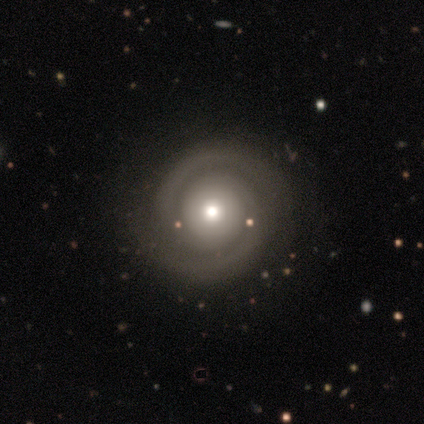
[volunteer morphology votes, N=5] Q: Smooth or featured?
A: featured or disk (80%); runner-up: smooth (20%)
Q: Edge-on disk?
A: no (100%)
Q: Bar?
A: no (100%)
Q: Spiral arms?
A: yes (100%)
Q: Spiral winding?
A: tight (100%)
Q: Spiral arm count?
A: 2 (100%)
Q: Bulge size?
A: moderate (100%)
Q: Merging?
A: none (100%)